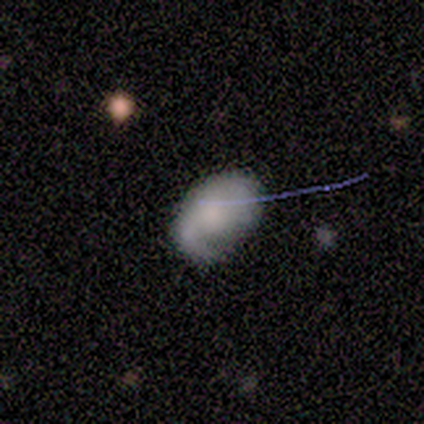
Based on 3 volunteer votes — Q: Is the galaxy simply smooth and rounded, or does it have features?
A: smooth — 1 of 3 (33%, tied with featured or disk and star or artifact).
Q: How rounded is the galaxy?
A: in between — 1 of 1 (100%).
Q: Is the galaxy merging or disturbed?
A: none — 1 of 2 (50%, tied with minor disturbance).